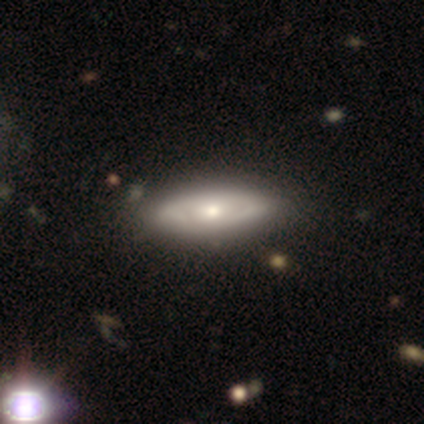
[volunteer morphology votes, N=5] smooth_or_featured: smooth (p=0.60) [alt: featured or disk p=0.40]
how_rounded: in between (p=0.67) [alt: cigar-shaped p=0.33]
merging: none (p=1.00)